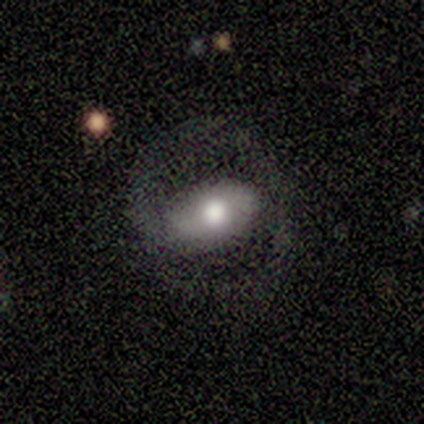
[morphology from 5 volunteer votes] smooth_or_featured: featured or disk (p=0.60) [alt: smooth p=0.40]
disk_edge_on: no (p=1.00)
bar: strong (p=0.33) [tied with: weak p=0.33, no p=0.33]
has_spiral_arms: yes (p=0.67) [alt: no p=0.33]
spiral_winding: tight (p=0.50) [tied with: medium p=0.50]
spiral_arm_count: 3 (p=0.50) [tied with: can't tell p=0.50]
bulge_size: moderate (p=0.67) [alt: large p=0.33]
merging: none (p=0.80) [alt: minor disturbance p=0.20]